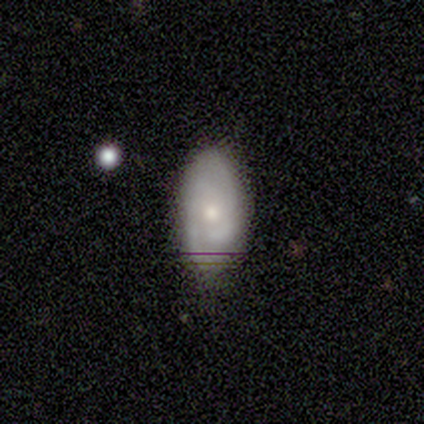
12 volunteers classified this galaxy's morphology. A featured or disk galaxy (67%) with no bar (62%), medium (50%) spiral arms (100%) and a moderate central bulge (62%). Merging: none (67%).